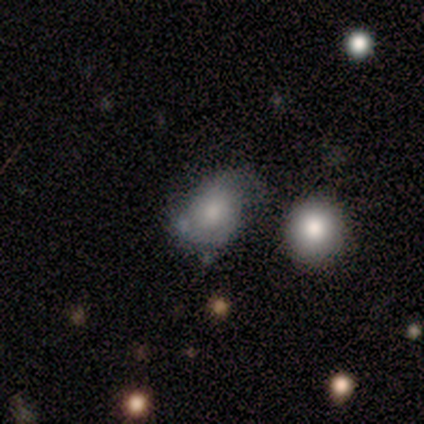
Smooth or featured: smooth — 60% (featured or disk — 40%)
How rounded: in between — 67% (round — 33%)
Merging: none — 60% (minor disturbance — 20%)